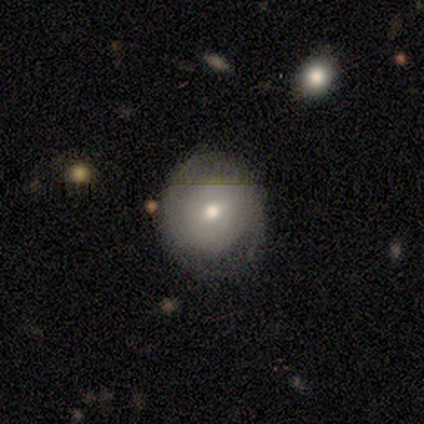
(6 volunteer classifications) Volunteers were most divided on "smooth or featured": smooth: 67%, featured or disk: 33%, star or artifact: 0%. More confident: how rounded — round (100%); merging — none (100%).